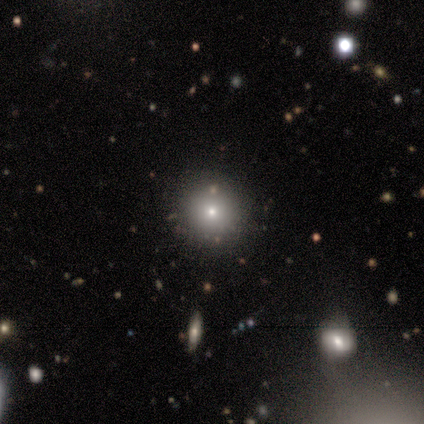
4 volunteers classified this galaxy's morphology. smooth_or_featured: featured or disk (p=0.50) [alt: smooth p=0.25]
disk_edge_on: no (p=1.00)
bar: no (p=1.00)
has_spiral_arms: no (p=1.00)
bulge_size: small (p=1.00)
merging: none (p=1.00)